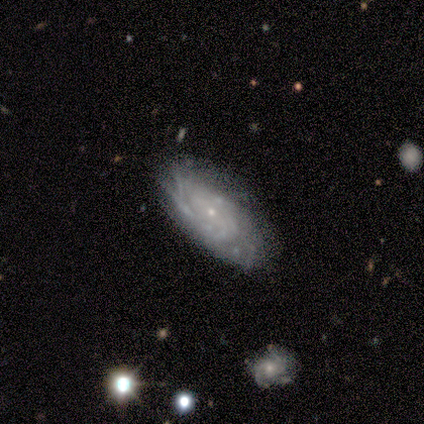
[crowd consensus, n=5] smooth-or-featured: featured or disk: 80% | star or artifact: 20% | smooth: 0%
  disk-edge-on: no: 100% | yes: 0%
    bar: weak: 75% | no: 25% | strong: 0%
    has-spiral-arms: yes: 100% | no: 0%
      spiral-winding: tight: 100% | medium: 0% | loose: 0%
      spiral-arm-count: can't tell: 75% | 2: 25% | 1: 0% | 3: 0% | 4: 0% | more than 4: 0%
    bulge-size: small: 100% | dominant: 0% | large: 0% | moderate: 0% | none: 0%
  merging: none: 75% | minor disturbance: 25% | major disturbance: 0% | merger: 0%